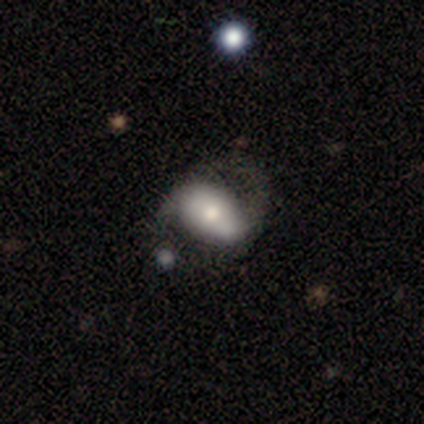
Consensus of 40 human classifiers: A featured or disk galaxy (60%) with a strong bar (36%), 2 (89%) medium (58%) spiral arms (86%) and a moderate central bulge (59%).

Vote fractions:
- Smooth or featured? featured or disk: 60% / smooth: 35% / star or artifact: 5%
- Edge-on disk? no: 92% / yes: 8%
- Bar? strong: 36% / weak: 32% / no: 32%
- Spiral arms? yes: 86% / no: 14%
- Spiral winding? medium: 58% / loose: 37% / tight: 5%
- Spiral arm count? 2: 89% / 1: 5% / can't tell: 5% / 3: 0% / 4: 0% / more than 4: 0%
- Bulge size? moderate: 59% / small: 18% / large: 14% / dominant: 5% / none: 5%
- Merging? none: 32% / minor disturbance: 21% / major disturbance: 8% / merger: 8%